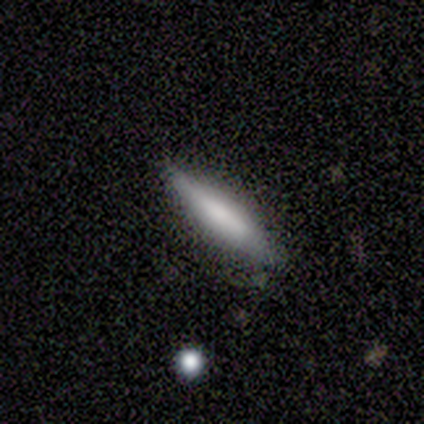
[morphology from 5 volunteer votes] A smooth galaxy with no disk features (60%) that is cigar-shaped (100%).

Vote fractions:
- Smooth or featured? smooth: 60% / featured or disk: 40% / star or artifact: 0%
- How rounded? cigar-shaped: 100% / round: 0% / in between: 0%
- Merging? none: 60% / minor disturbance: 40% / major disturbance: 0% / merger: 0%